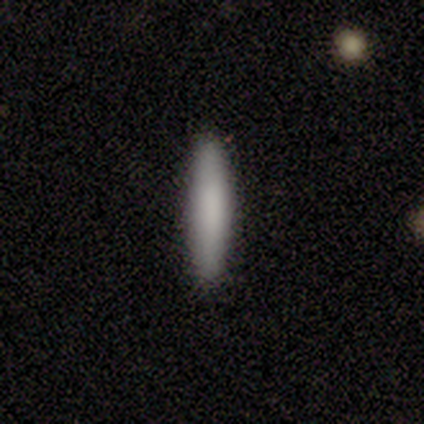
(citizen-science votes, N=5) A smooth galaxy with no disk features (80%) that is cigar-shaped (100%). Merging: none (80%).